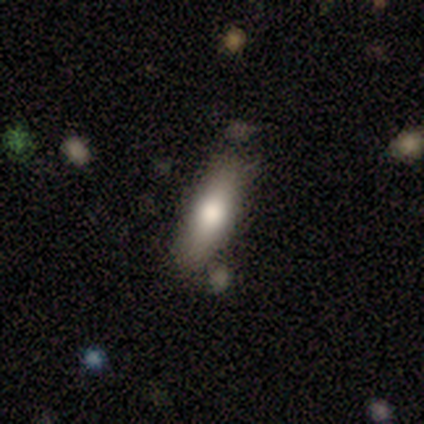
Q: Smooth or featured?
A: smooth (80%); runner-up: featured or disk (20%)
Q: How rounded?
A: in between (50%); tied with: cigar-shaped (50%)
Q: Merging?
A: none (80%); runner-up: minor disturbance (20%)